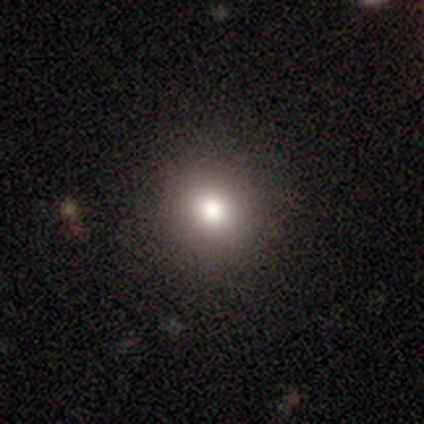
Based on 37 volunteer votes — A smooth galaxy with no disk features (73%) that is round (100%).

Vote fractions:
- Smooth or featured? smooth: 73% / star or artifact: 19% / featured or disk: 8%
- How rounded? round: 100% / in between: 0% / cigar-shaped: 0%
- Merging? none: 97% / minor disturbance: 3% / major disturbance: 0% / merger: 0%